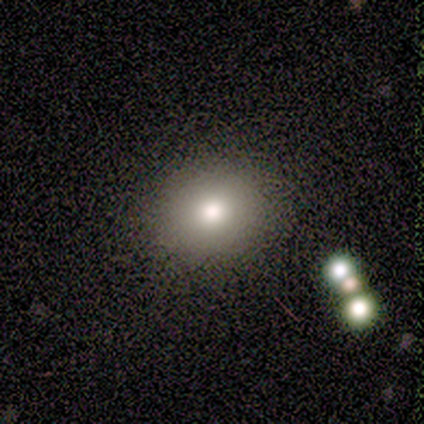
Smooth or featured? 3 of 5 (60%) said smooth. How rounded? 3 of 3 (100%) said round. Merging? 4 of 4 (100%) said none.